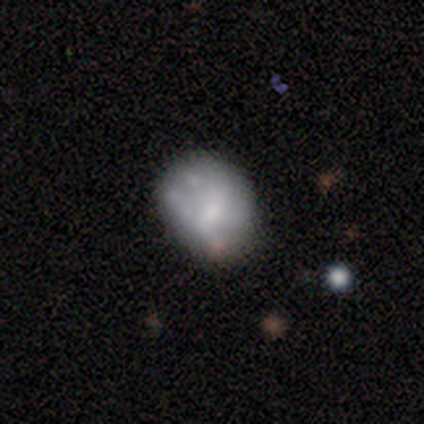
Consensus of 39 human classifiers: smooth-or-featured: featured or disk: 54% | smooth: 41% | star or artifact: 5%
  disk-edge-on: no: 100% | yes: 0%
    bar: no: 67% | weak: 24% | strong: 10%
    has-spiral-arms: no: 86% | yes: 14%
    bulge-size: moderate: 38% | none: 33% | small: 24% | large: 5% | dominant: 0%
  merging: none: 62% | minor disturbance: 16% | major disturbance: 11% | merger: 11%